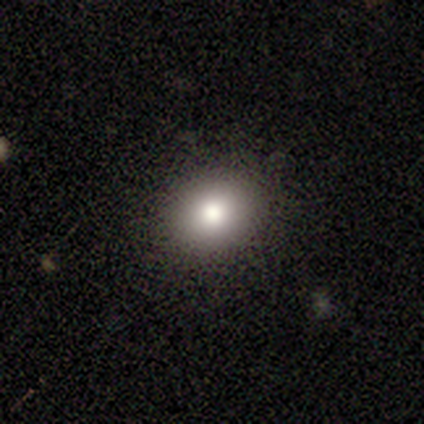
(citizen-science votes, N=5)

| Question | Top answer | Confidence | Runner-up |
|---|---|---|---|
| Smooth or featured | smooth | 80% | star or artifact (20%) |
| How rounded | round | 100% | — |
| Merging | none | 100% | — |